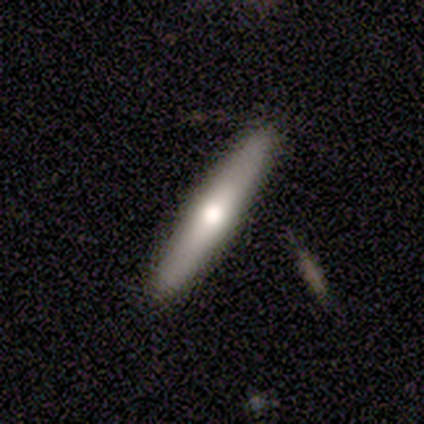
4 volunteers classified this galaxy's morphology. This is possibly a smooth galaxy (50%, tied with featured or disk). How rounded: clearly cigar-shaped (100%). Merging: clearly none (100%).